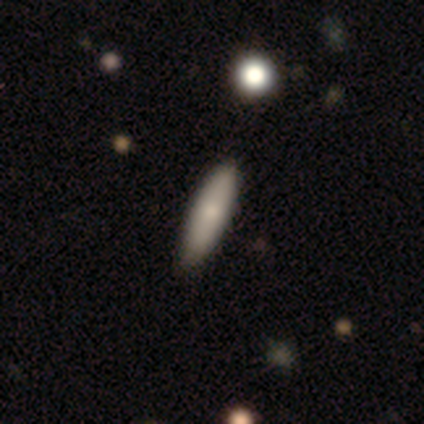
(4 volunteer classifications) Morphology: type=smooth (50%, tied with featured or disk); roundness=cigar-shaped (100%); merging=none (100%).